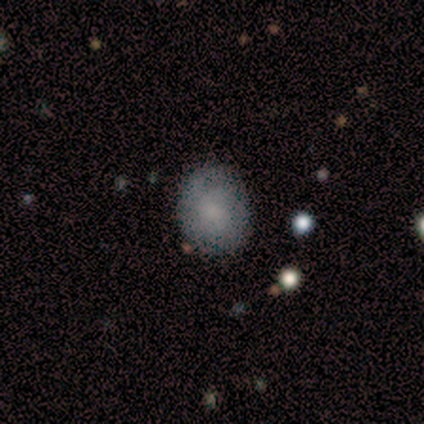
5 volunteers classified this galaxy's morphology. Smooth or featured: smooth — 60% (featured or disk — 40%)
How rounded: round — 67% (in between — 33%)
Merging: none — 80% (merger — 20%)